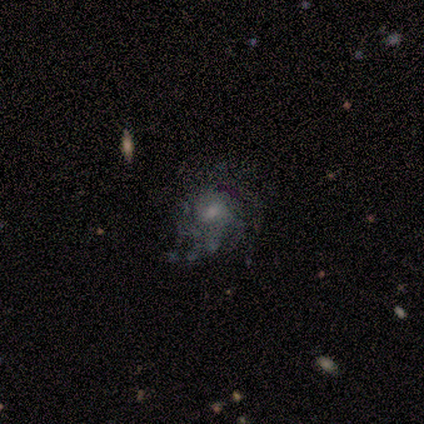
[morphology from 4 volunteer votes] Smooth or featured? 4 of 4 (100%) said featured or disk. Edge-on disk? 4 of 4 (100%) said no. Bar? 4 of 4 (100%) said no. Spiral arms? 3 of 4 (75%) said yes. Spiral winding? 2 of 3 (67%) said tight. Spiral arm count? 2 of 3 (67%) said 4. Bulge size? 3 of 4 (75%) said small. Merging? 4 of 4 (100%) said none.